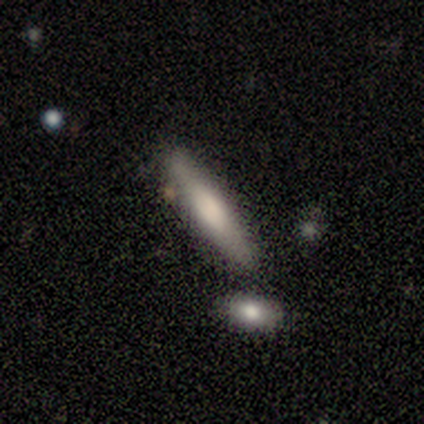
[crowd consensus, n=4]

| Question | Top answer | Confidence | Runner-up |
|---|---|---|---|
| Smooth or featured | smooth | 75% | featured or disk (25%) |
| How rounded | cigar-shaped | 100% | — |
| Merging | none | 100% | — |